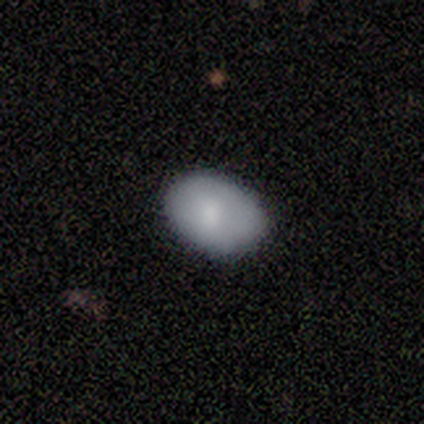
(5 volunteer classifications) A smooth galaxy with no disk features (100%) that is in between round and cigar-shaped (60%).

Vote fractions:
- Smooth or featured? smooth: 100% / featured or disk: 0% / star or artifact: 0%
- How rounded? in between: 60% / round: 40% / cigar-shaped: 0%
- Merging? none: 100% / minor disturbance: 0% / major disturbance: 0% / merger: 0%